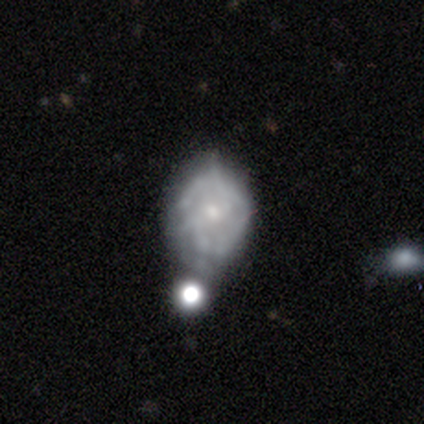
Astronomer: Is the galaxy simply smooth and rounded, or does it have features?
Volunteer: featured or disk — 69%.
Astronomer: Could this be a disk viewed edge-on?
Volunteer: no — 96%.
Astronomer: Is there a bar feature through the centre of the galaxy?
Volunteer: no — 85%.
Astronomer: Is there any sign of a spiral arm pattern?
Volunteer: no — 65%.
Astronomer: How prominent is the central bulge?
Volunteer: small — 69%.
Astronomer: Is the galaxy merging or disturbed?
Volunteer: minor disturbance — 35% (runner-up: none, 32%).